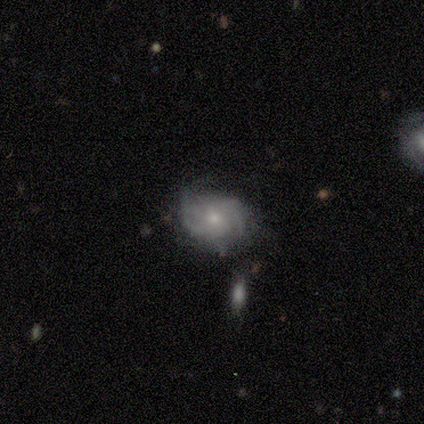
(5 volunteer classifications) Morphology: type=featured or disk (80%); edge-on=no (100%); bar=no (75%); spiral arms=yes (75%); winding=medium (67%); arm count=2 (67%); bulge=moderate (50%); merging=none (40%, tied with minor disturbance).